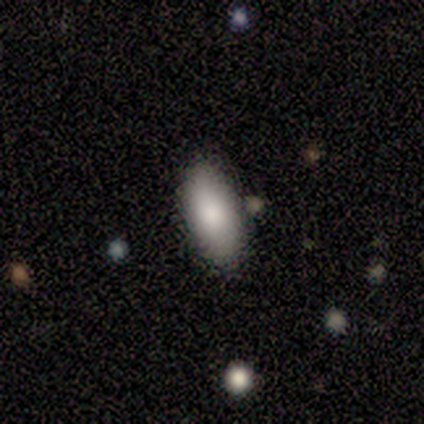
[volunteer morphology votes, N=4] Smooth or featured: smooth — 75% (star or artifact — 25%)
How rounded: in between — 100%
Merging: none — 100%